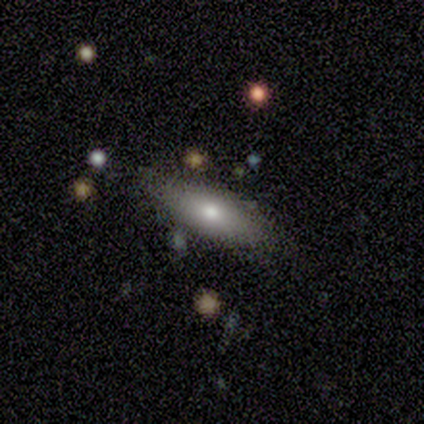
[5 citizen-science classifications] Morphology: type=smooth (100%); roundness=in between (80%); merging=minor disturbance (80%).